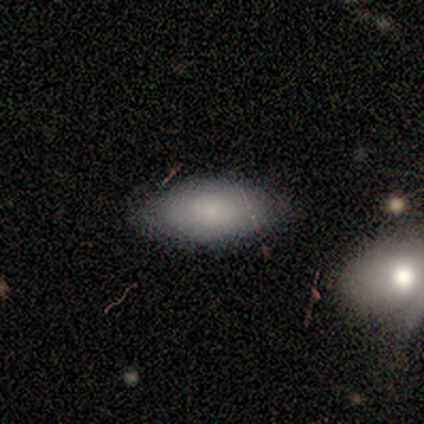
Smooth or featured: smooth — 84% (star or artifact — 13%)
How rounded: in between — 91% (cigar-shaped — 6%)
Merging: none — 76% (minor disturbance — 15%)